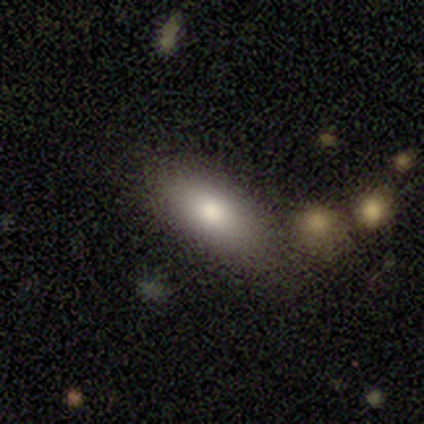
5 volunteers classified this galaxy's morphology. smooth-or-featured: smooth: 100% | featured or disk: 0% | star or artifact: 0%
  how-rounded: in between: 80% | round: 20% | cigar-shaped: 0%
  merging: none: 100% | minor disturbance: 0% | major disturbance: 0% | merger: 0%